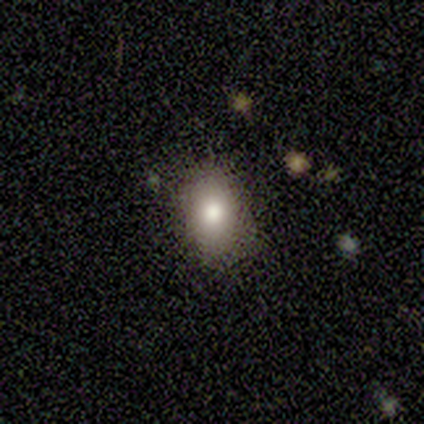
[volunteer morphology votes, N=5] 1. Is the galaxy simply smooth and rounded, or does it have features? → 80% smooth, 20% star or artifact, 0% featured or disk.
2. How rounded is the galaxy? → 100% in between, 0% round, 0% cigar-shaped.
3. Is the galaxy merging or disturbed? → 100% none, 0% minor disturbance, 0% major disturbance, 0% merger.